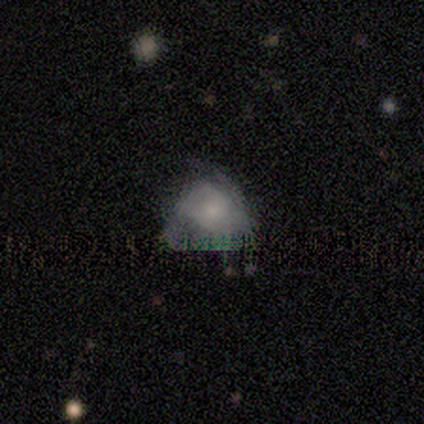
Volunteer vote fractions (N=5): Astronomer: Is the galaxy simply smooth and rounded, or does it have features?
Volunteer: smooth — 40%, tied with star or artifact at 40%.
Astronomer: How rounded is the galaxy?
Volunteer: round — 100%.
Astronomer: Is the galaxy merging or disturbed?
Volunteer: none — 67%.